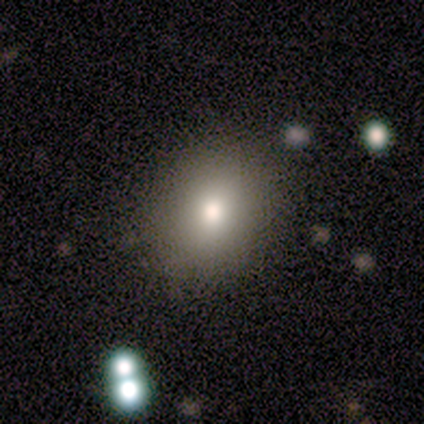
Smooth or featured? 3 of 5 (60%) said smooth. How rounded? 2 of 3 (67%) said round. Merging? 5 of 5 (100%) said none.